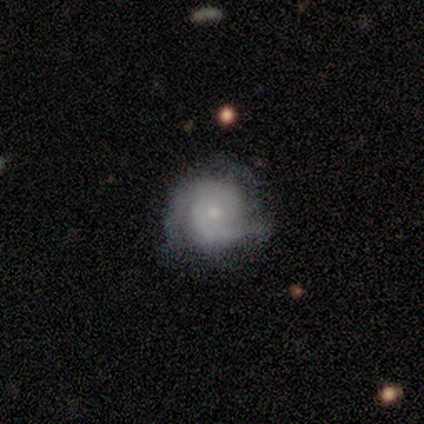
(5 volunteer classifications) Smooth or featured? featured or disk (60%)
Edge-on disk? no (100%)
Bar? no (100%)
Spiral arms? yes (100%)
Spiral winding? tight (100%)
Spiral arm count? 2 (100%)
Bulge size? small (100%)
Merging? none (100%)